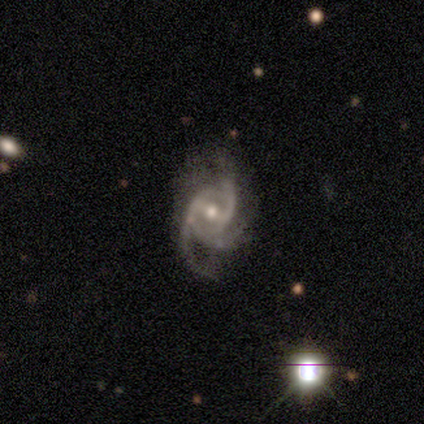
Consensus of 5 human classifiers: This is clearly a featured or disk galaxy (80%). It is likely not viewed edge-on (75%). Bar: clearly strong (100%). Spiral arm pattern: clearly yes (100%). Spiral arm count: likely 3 (67%). Spiral winding: likely medium (67%). Central bulge: likely moderate (67%). Merging: possibly none (50%).